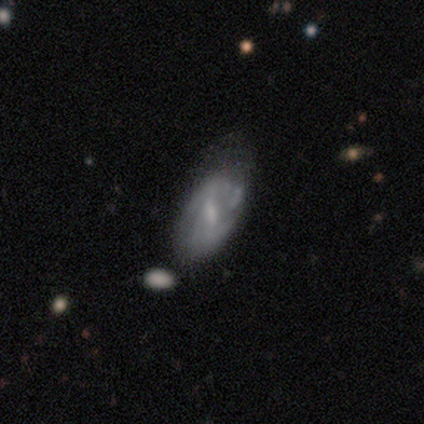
Overall: featured or disk (100%). Edge-on disk: no (100%). Bar: strong (40%, tied with no). Spiral arms: no (80%). Bulge size: none (60%; moderate 20%). Merging: minor disturbance (80%).